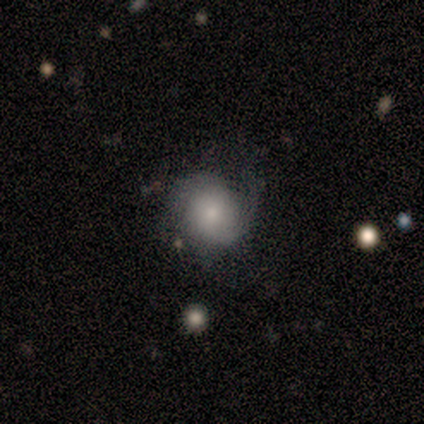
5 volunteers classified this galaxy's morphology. Smooth or featured? 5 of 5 (100%) said featured or disk. Edge-on disk? 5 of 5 (100%) said no. Bar? 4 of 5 (80%) said no. Spiral arms? 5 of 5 (100%) said yes. Spiral winding? 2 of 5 (40%, tied with loose) said medium. Spiral arm count? 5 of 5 (100%) said 2. Bulge size? 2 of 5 (40%, tied with small) said moderate. Merging? 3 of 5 (60%) said none.